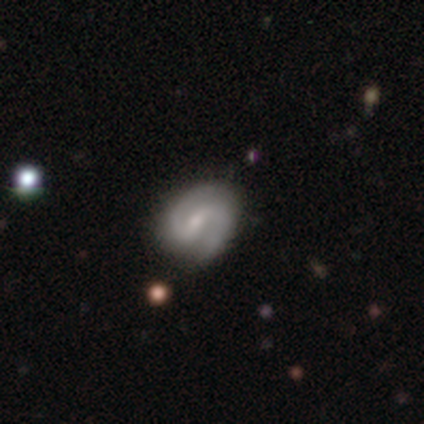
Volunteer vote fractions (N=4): This appears to be a featured or disk galaxy (100%) with a weak bar (100%), 2 (75%) medium (75%) spiral arms (100%) and a small central bulge (75%). Merging: none (75%).